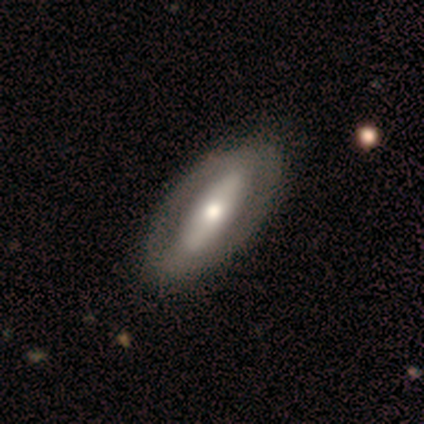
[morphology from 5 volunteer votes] smooth_or_featured: featured or disk (p=0.80) [alt: smooth p=0.20]
disk_edge_on: no (p=1.00)
bar: strong (p=0.50) [alt: weak p=0.25]
has_spiral_arms: no (p=1.00)
bulge_size: moderate (p=0.75) [alt: large p=0.25]
merging: none (p=0.80) [alt: minor disturbance p=0.20]